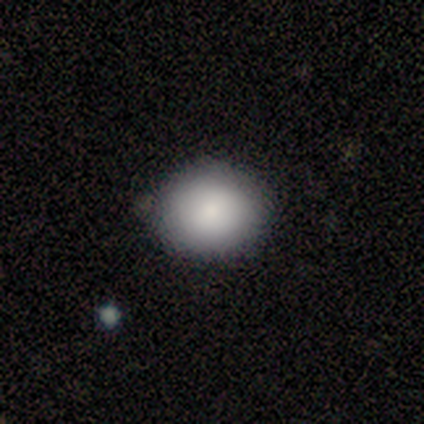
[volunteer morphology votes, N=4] Smooth or featured? smooth (75%)
How rounded? round (67%)
Merging? none (100%)